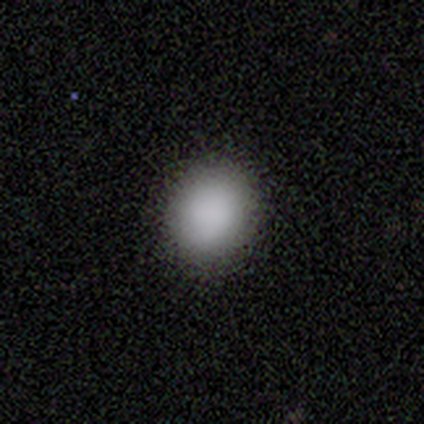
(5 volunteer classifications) Smooth or featured? smooth (80%)
How rounded? round (50%, tied with in between)
Merging? none (75%)